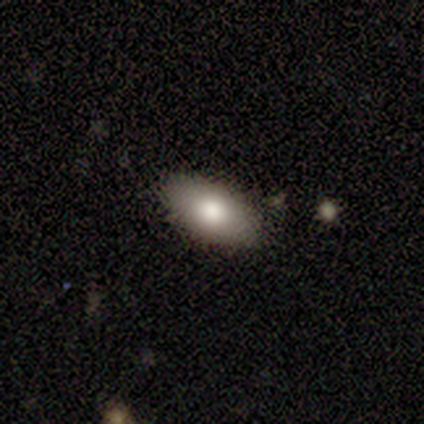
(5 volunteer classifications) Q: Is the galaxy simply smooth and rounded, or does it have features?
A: smooth — 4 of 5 (80%).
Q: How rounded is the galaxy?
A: in between — 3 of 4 (75%).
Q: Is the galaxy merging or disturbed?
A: none — 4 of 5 (80%).